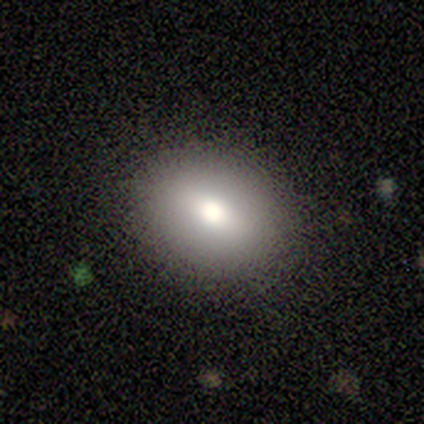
smooth_or_featured: smooth (p=0.60) [alt: featured or disk p=0.20]
how_rounded: in between (p=0.67) [alt: round p=0.33]
merging: none (p=0.75) [alt: minor disturbance p=0.25]